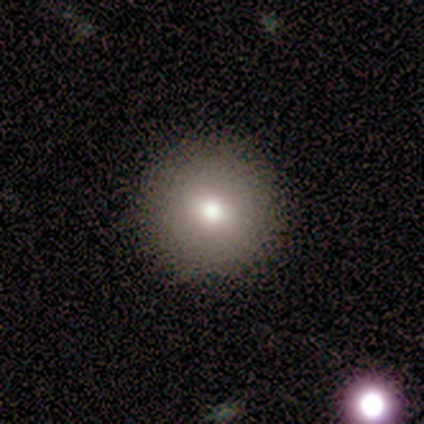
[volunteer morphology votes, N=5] smooth 80%, featured or disk 20%, star or artifact 0%. Down the decision tree: how rounded — round (100%); merging — none (100%).